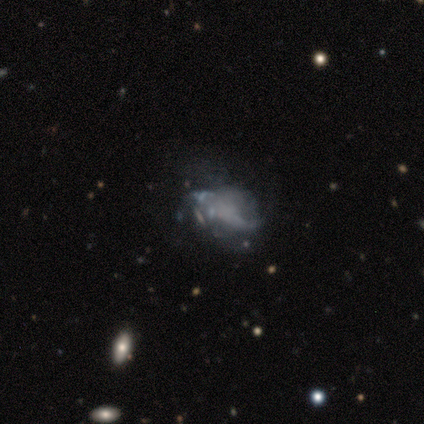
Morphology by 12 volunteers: smooth_or_featured: featured or disk (p=0.50) [alt: smooth p=0.33]
disk_edge_on: no (p=1.00)
bar: no (p=0.83) [alt: weak p=0.17]
has_spiral_arms: no (p=0.67) [alt: yes p=0.33]
bulge_size: none (p=0.83) [alt: moderate p=0.17]
merging: major disturbance (p=0.40) [alt: minor disturbance p=0.30]